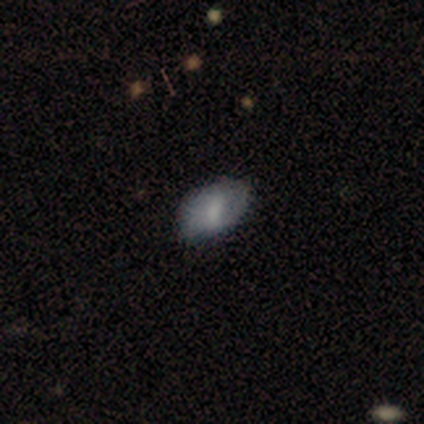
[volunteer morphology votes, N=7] Smooth or featured?
  - smooth: 100% *
  - featured or disk: 0%
  - star or artifact: 0%
How rounded?
  - in between: 86% *
  - round: 14%
  - cigar-shaped: 0%
Merging?
  - none: 71% *
  - minor disturbance: 29%
  - major disturbance: 0%
  - merger: 0%